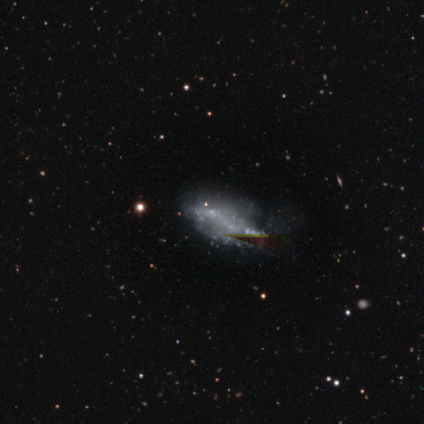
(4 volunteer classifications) Morphology: type=smooth (50%); roundness=in between (100%); merging=major disturbance (67%).